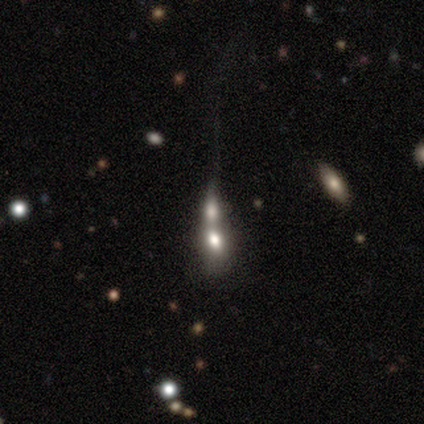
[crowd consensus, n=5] Smooth or featured: featured or disk — 60% (smooth — 20%)
Edge-on disk: no — 100%
Bar: no — 100%
Spiral arms: no — 100%
Bulge size: moderate — 67% (large — 33%)
Merging: merger — 75% (major disturbance — 25%)